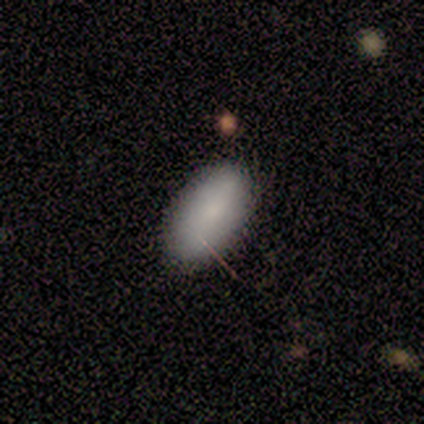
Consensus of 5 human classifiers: Smooth or featured: smooth — 80% (star or artifact — 20%)
How rounded: in between — 100%
Merging: none — 50% (tied with minor disturbance — 50%)